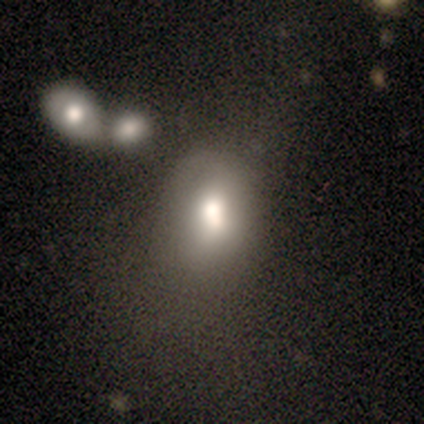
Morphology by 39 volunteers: This appears to be a smooth galaxy with no disk features (72%) that is in between round and cigar-shaped (79%). Merging: none (46%).